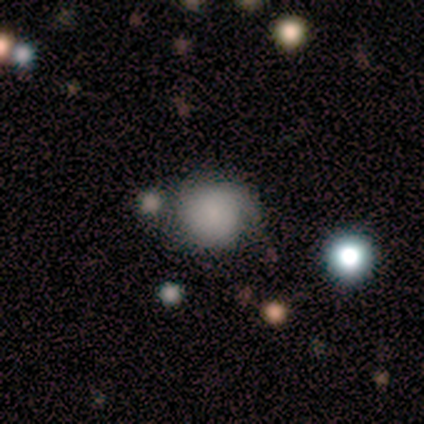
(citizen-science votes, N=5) Smooth or featured?
  - smooth: 80% *
  - featured or disk: 20%
  - star or artifact: 0%
How rounded?
  - round: 100% *
  - in between: 0%
  - cigar-shaped: 0%
Merging?
  - minor disturbance: 60% *
  - none: 20%
  - merger: 20%
  - major disturbance: 0%